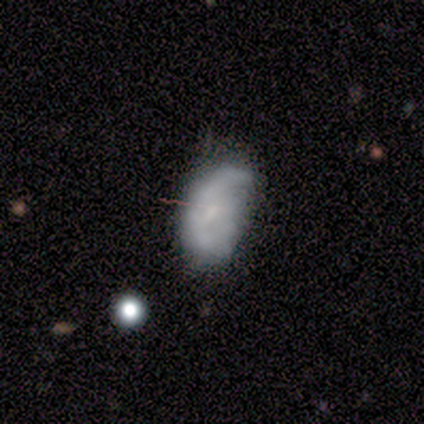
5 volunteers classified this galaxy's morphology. This appears to be a smooth galaxy with no disk features (60%) that is in between round and cigar-shaped (67%). Merging: none (75%).